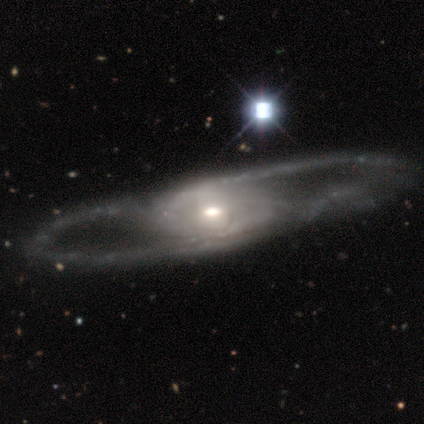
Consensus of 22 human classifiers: Smooth or featured? featured or disk (86%)
Edge-on disk? no (89%)
Bar? no (65%)
Spiral arms? yes (59%)
Spiral winding? loose (50%)
Spiral arm count? 2 (80%)
Bulge size? moderate (59%)
Merging? none (27%)